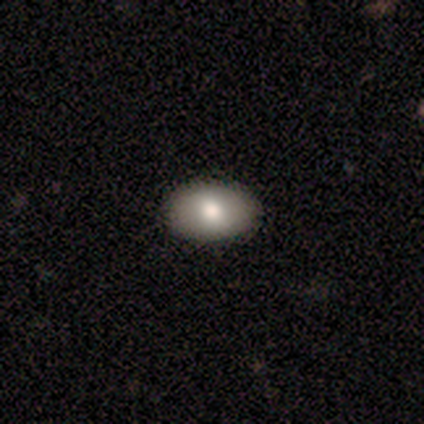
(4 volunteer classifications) Volunteers were most divided on "how rounded": in between: 75%, round: 25%, cigar-shaped: 0%. More confident: smooth or featured — smooth (100%); merging — none (100%).